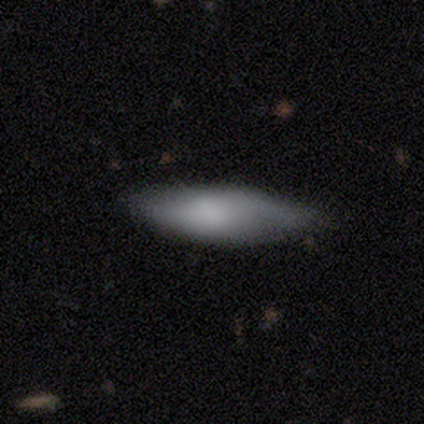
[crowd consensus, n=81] This is likely a smooth galaxy (73%). How rounded: likely in between (63%). Merging: likely none (61%).